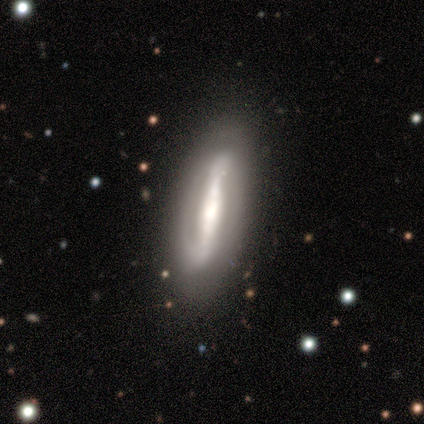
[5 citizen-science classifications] This appears to be a featured or disk galaxy (100%) viewed edge-on (60%) with a boxy central bulge (33%, tied with none and rounded). Merging: none (80%).